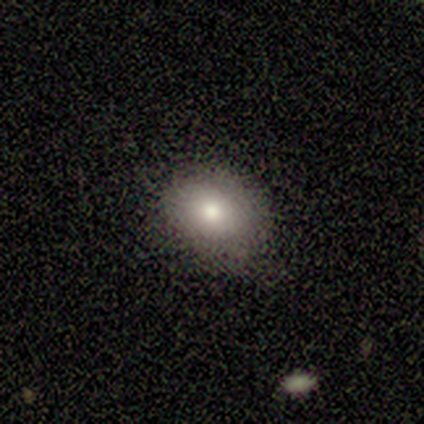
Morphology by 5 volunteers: Overall: smooth (100%). How rounded: round (80%). Merging: none (80%).